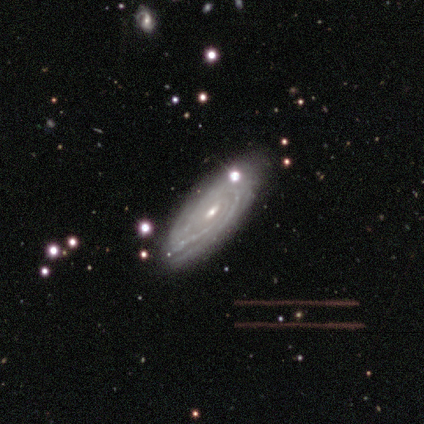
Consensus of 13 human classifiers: This appears to be a featured or disk galaxy (92%) with no bar (80%), tight (80%) spiral arms (100%) and a small central bulge (60%). Merging: none (69%).